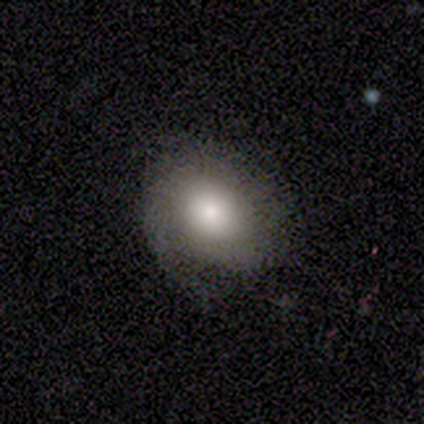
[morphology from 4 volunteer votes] smooth 50% (tied), featured or disk 50% (tied), star or artifact 0%. Down the decision tree: how rounded — round (50%, tied with in between); merging — none (75%).